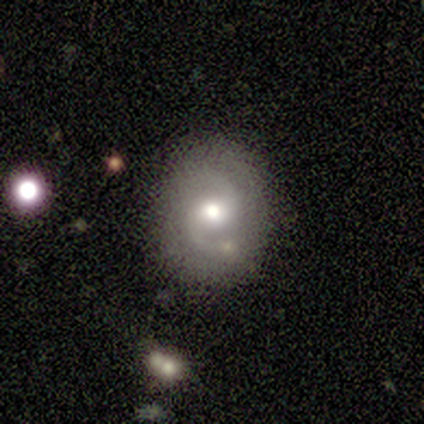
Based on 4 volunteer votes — Volunteers were most divided on "bar" (2-way tie): weak: 50%, no: 50%, strong: 0%. More confident: smooth or featured — featured or disk (100%); edge-on disk — no (100%); spiral arms — yes (100%); spiral arm count — 2 (100%); bulge size — moderate (100%); merging — none (100%); spiral winding — loose (75%).